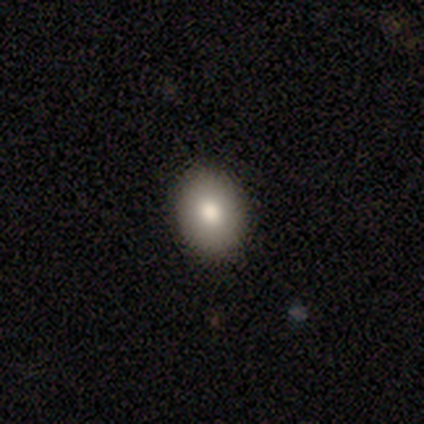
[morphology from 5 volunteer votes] This appears to be a smooth galaxy with no disk features (100%) that is in between round and cigar-shaped (60%). Merging: none (100%).